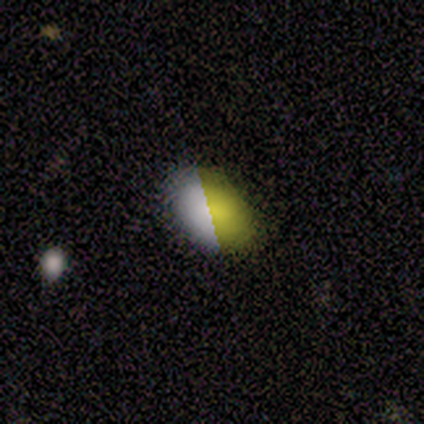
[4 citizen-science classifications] Morphology: type=smooth (50%, tied with star or artifact); roundness=in between (100%); merging=none (50%, tied with merger).